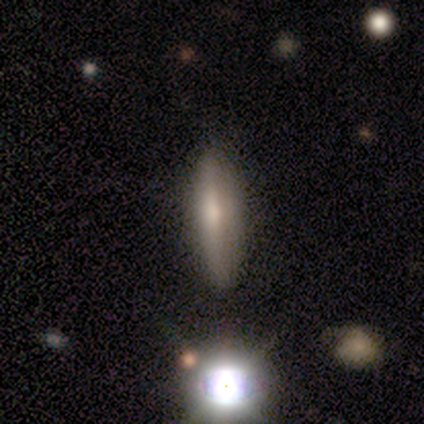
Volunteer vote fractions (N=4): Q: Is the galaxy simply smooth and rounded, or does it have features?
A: smooth — 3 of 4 (75%).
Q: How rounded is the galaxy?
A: cigar-shaped — 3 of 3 (100%).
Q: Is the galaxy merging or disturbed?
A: none — 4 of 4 (100%).